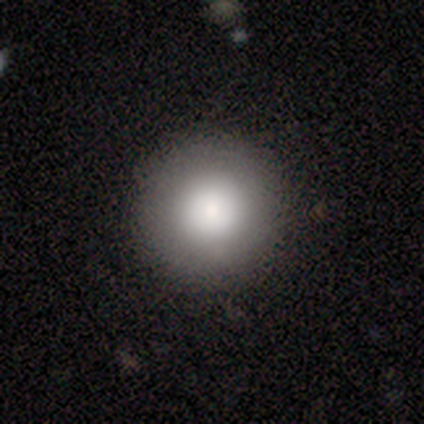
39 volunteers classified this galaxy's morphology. type=smooth (79%); roundness=round (97%); merging=none (92%).